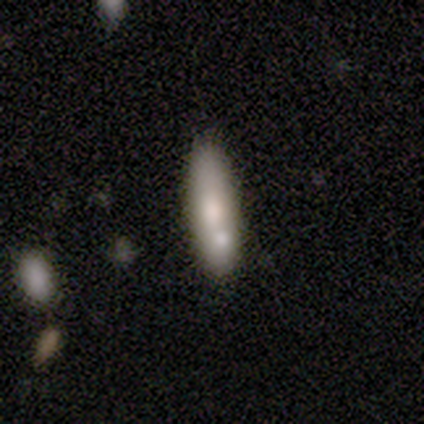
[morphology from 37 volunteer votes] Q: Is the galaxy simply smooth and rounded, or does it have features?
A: smooth — 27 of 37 (73%).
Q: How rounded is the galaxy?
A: cigar-shaped — 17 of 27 (63%).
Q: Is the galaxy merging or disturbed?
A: none — 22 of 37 (59%).